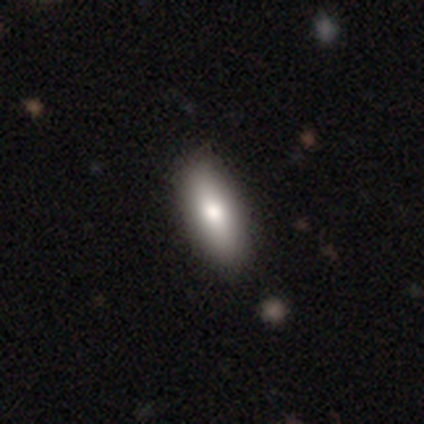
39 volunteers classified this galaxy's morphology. Volunteers were most divided on "smooth or featured": smooth: 77%, featured or disk: 21%, star or artifact: 3%. More confident: how rounded — in between (83%); merging — none (68%).